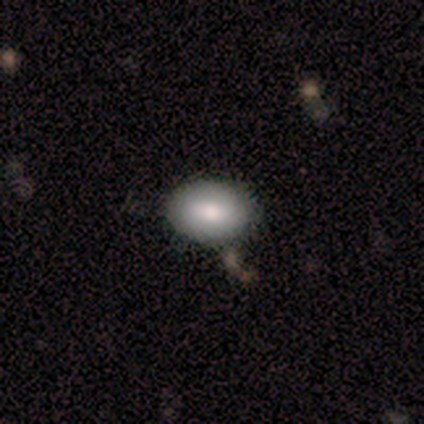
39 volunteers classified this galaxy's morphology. A smooth galaxy with no disk features (85%) that is in between round and cigar-shaped (79%). Merging: none (82%).